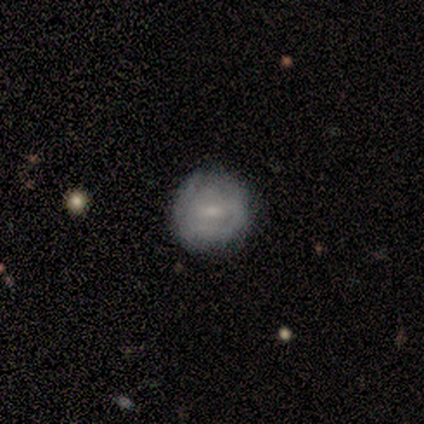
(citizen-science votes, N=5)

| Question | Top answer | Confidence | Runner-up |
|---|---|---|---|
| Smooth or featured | smooth | 60% | featured or disk (20%) |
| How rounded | round | 67% | cigar-shaped (33%) |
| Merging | minor disturbance | 75% | none (25%) |